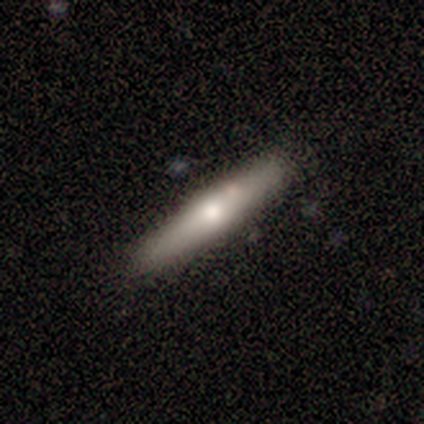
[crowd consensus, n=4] smooth_or_featured: smooth (p=1.00)
how_rounded: cigar-shaped (p=1.00)
merging: none (p=0.75) [alt: minor disturbance p=0.25]